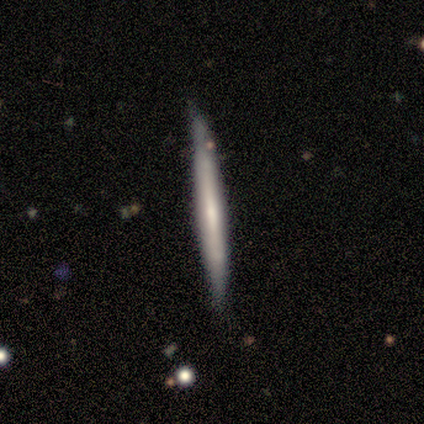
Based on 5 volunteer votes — smooth-or-featured: smooth: 60% | featured or disk: 40% | star or artifact: 0%
  how-rounded: cigar-shaped: 100% | round: 0% | in between: 0%
  merging: none: 80% | merger: 20% | minor disturbance: 0% | major disturbance: 0%